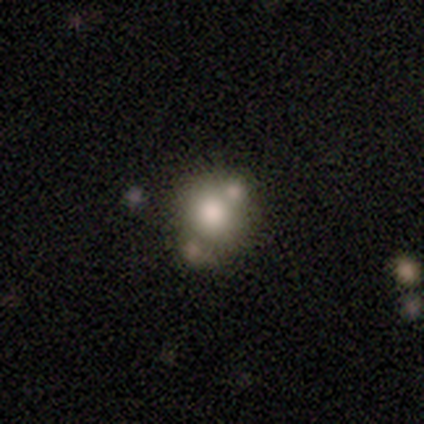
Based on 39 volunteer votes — Smooth or featured? smooth (69%)
How rounded? round (74%)
Merging? none (43%, tied with merger)